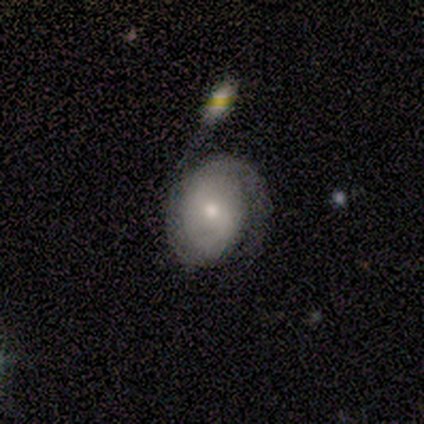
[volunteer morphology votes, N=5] Smooth or featured? featured or disk (80%)
Edge-on disk? no (100%)
Bar? weak (50%, tied with no)
Spiral arms? yes (100%)
Spiral winding? tight (75%)
Spiral arm count? 2 (75%)
Bulge size? small (50%)
Merging? minor disturbance (80%)